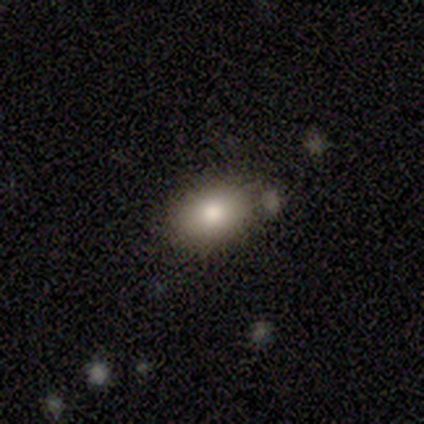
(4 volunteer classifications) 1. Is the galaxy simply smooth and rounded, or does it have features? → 100% smooth, 0% featured or disk, 0% star or artifact.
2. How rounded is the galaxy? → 75% in between, 25% round, 0% cigar-shaped.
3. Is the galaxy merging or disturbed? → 50% none, 25% minor disturbance, 25% major disturbance, 0% merger.